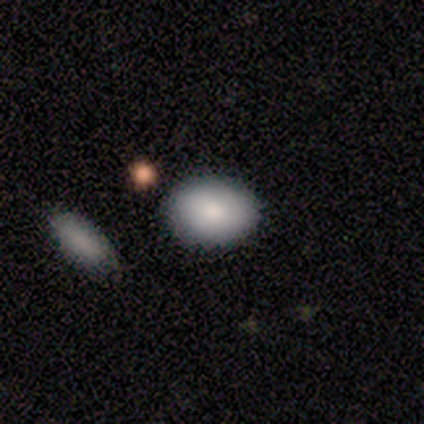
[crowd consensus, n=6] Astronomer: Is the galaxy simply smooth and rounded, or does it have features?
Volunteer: smooth — 83%.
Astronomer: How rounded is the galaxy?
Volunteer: in between — 80%.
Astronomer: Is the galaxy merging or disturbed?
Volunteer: none — 80%.